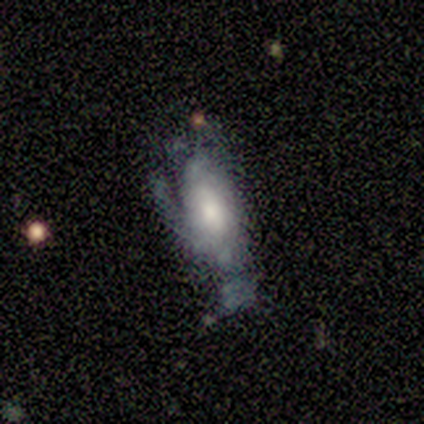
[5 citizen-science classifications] Q: Smooth or featured?
A: featured or disk (60%); runner-up: smooth (20%)
Q: Edge-on disk?
A: no (100%)
Q: Bar?
A: no (100%)
Q: Spiral arms?
A: yes (100%)
Q: Spiral winding?
A: tight (67%); runner-up: medium (33%)
Q: Spiral arm count?
A: can't tell (100%)
Q: Bulge size?
A: large (67%); runner-up: moderate (33%)
Q: Merging?
A: none (50%); tied with: major disturbance (50%)